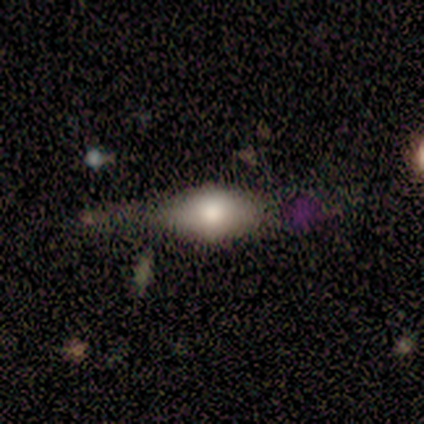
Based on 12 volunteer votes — This is possibly a smooth galaxy (58%). How rounded: clearly in between (86%). Merging: possibly none (58%).